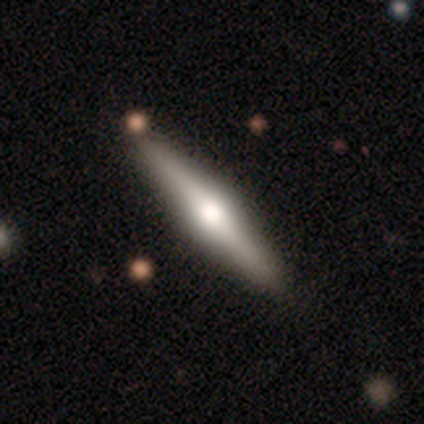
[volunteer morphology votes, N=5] Smooth or featured: smooth — 40% (tied with featured or disk — 40%)
How rounded: round — 50% (tied with cigar-shaped — 50%)
Merging: none — 50% (tied with minor disturbance — 50%)